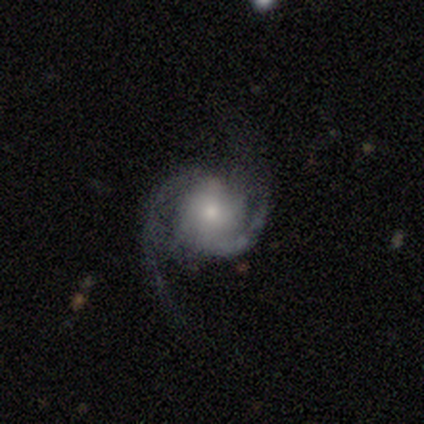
Q: Smooth or featured?
A: featured or disk (87%); runner-up: smooth (10%)
Q: Edge-on disk?
A: no (94%); runner-up: yes (6%)
Q: Bar?
A: no (66%); runner-up: weak (34%)
Q: Spiral arms?
A: yes (97%); runner-up: no (3%)
Q: Spiral winding?
A: medium (52%); runner-up: loose (29%)
Q: Spiral arm count?
A: 2 (90%); runner-up: can't tell (10%)
Q: Bulge size?
A: small (56%); runner-up: moderate (38%)
Q: Merging?
A: none (71%); runner-up: major disturbance (21%)